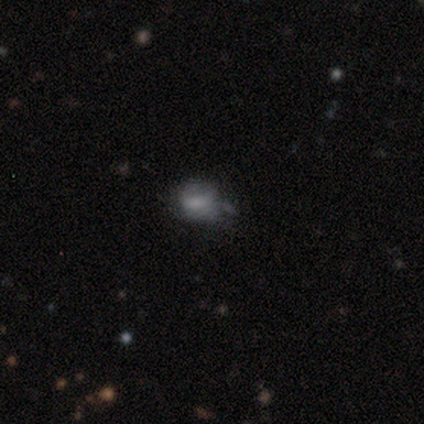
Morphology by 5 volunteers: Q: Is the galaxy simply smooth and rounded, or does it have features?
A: smooth — 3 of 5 (60%).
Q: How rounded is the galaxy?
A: in between — 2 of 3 (67%).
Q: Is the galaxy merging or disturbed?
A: none — 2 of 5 (40%, tied with minor disturbance).